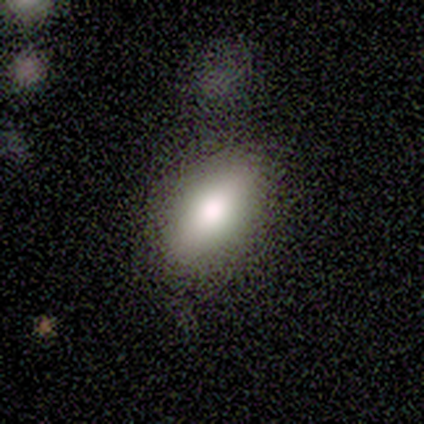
A smooth galaxy with no disk features (80%) that is in between round and cigar-shaped (75%). Merging: none (100%).